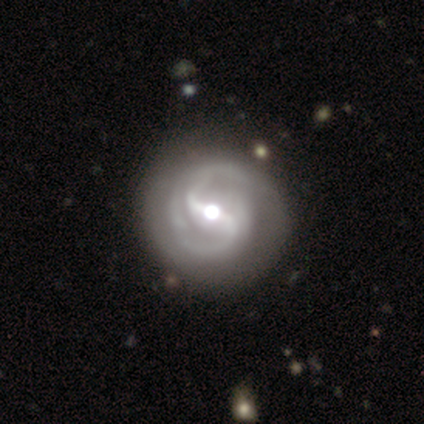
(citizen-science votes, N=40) This appears to be a featured or disk galaxy (95%) with a strong bar (63%), 2 (89%) medium (45%) spiral arms (100%) and a moderate central bulge (76%). Merging: none (57%).